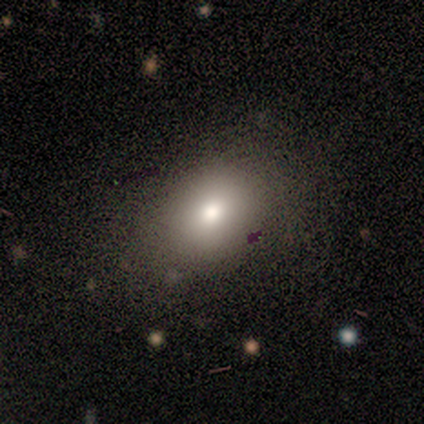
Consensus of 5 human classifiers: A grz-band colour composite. It shows a smooth galaxy with no disk features (60%) that is in between round and cigar-shaped (100%). Merging: none (80%).